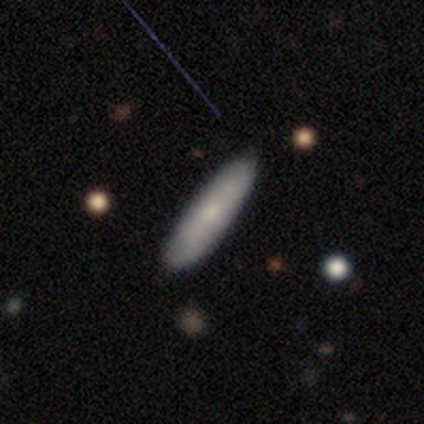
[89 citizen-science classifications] Overall: smooth (75%). How rounded: cigar-shaped (76%). Merging: none (87%).